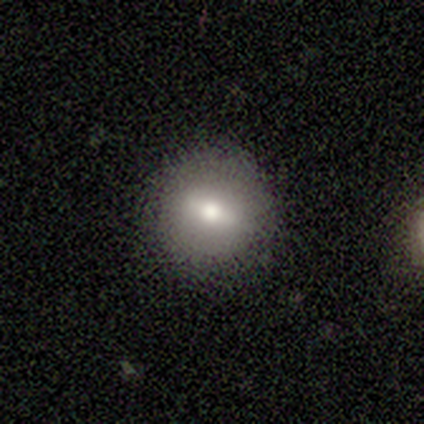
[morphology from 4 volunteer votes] Smooth or featured? 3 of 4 (75%) said smooth. How rounded? 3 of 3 (100%) said round. Merging? 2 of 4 (50%, tied with minor disturbance) said none.